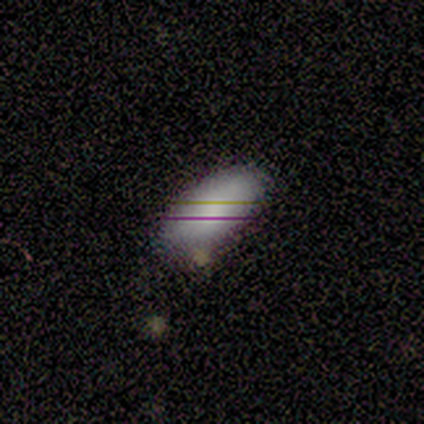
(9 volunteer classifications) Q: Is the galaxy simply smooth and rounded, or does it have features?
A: smooth — 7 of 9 (78%).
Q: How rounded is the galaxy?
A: in between — 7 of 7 (100%).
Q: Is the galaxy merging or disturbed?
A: none — 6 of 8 (75%).